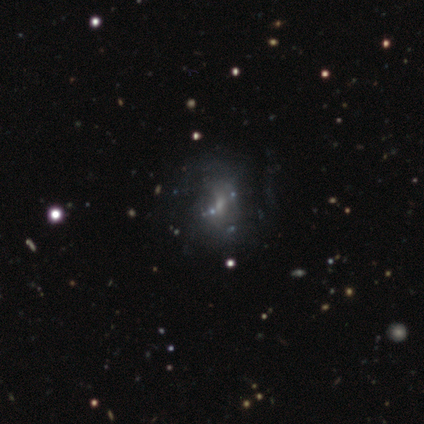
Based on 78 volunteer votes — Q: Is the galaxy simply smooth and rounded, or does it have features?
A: featured or disk — 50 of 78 (64%).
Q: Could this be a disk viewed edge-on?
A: no — 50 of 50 (100%).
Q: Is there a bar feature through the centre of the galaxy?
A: no — 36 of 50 (72%).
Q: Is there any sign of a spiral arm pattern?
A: no — 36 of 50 (72%).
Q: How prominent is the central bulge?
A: small — 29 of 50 (58%).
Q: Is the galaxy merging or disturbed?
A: none — 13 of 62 (21%).